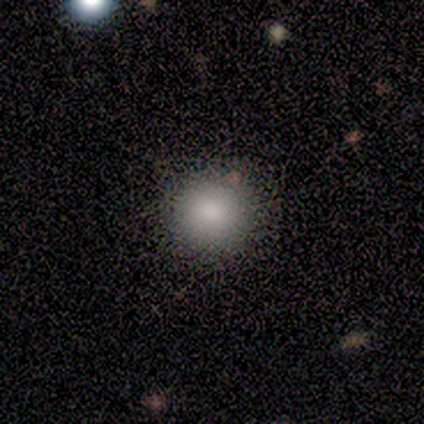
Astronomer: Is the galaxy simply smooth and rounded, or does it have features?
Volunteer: smooth — 88%.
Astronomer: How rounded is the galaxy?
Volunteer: round — 100%.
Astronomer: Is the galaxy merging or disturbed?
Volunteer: none — 86%.